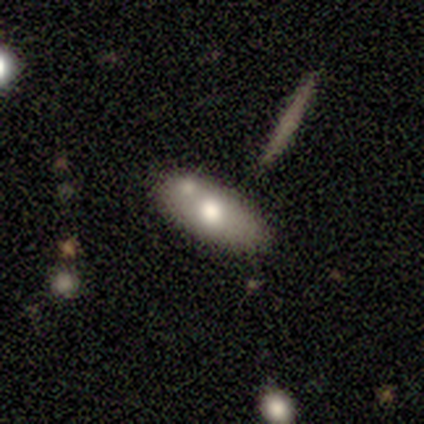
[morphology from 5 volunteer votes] A smooth galaxy with no disk features (80%) that is in between round and cigar-shaped (100%).

Vote fractions:
- Smooth or featured? smooth: 80% / featured or disk: 20% / star or artifact: 0%
- How rounded? in between: 100% / round: 0% / cigar-shaped: 0%
- Merging? none: 80% / minor disturbance: 20% / major disturbance: 0% / merger: 0%